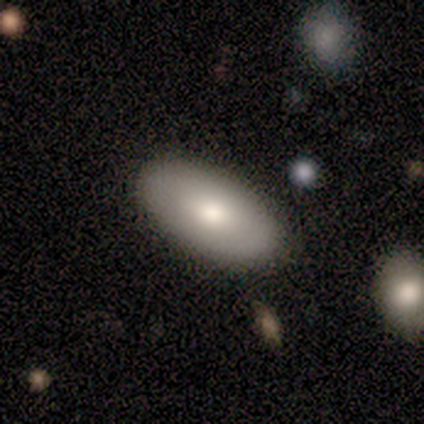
smooth 40% (tied), featured or disk 40% (tied), star or artifact 20%. Down the decision tree: how rounded — in between (100%); merging — none (100%).